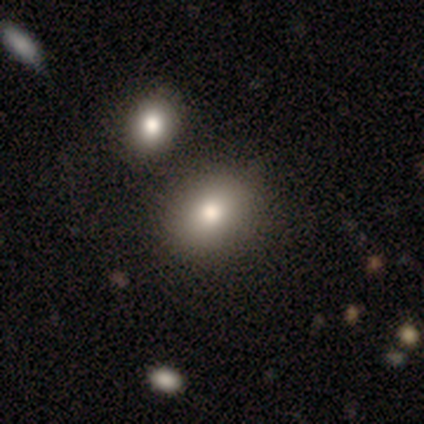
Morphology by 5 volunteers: Smooth or featured? smooth (100%)
How rounded? round (60%)
Merging? none (60%)